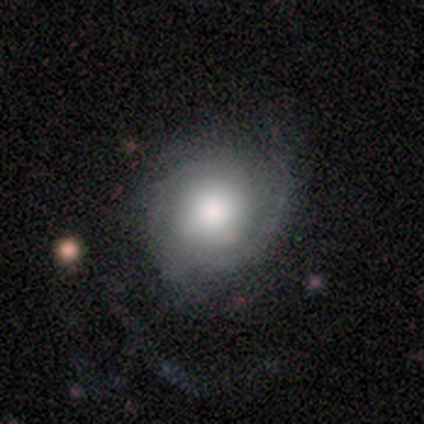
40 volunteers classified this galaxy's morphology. Smooth or featured?
  - featured or disk: 52% *
  - smooth: 45%
  - star or artifact: 2%
Edge-on disk?
  - no: 95% *
  - yes: 5%
Bar?
  - no: 85% *
  - weak: 10%
  - strong: 5%
Spiral arms?
  - yes: 90% *
  - no: 10%
Spiral winding?
  - tight: 50% *
  - medium: 39%
  - loose: 11%
Spiral arm count?
  - can't tell: 39% *
  - 3: 28%
  - 2: 22%
  - 1: 6%
  - 4: 6%
  - more than 4: 0%
Bulge size?
  - large: 45% *
  - dominant: 30%
  - moderate: 20%
  - small: 5%
  - none: 0%
Merging?
  - none: 33% *
  - minor disturbance: 23%
  - major disturbance: 18%
  - merger: 0%